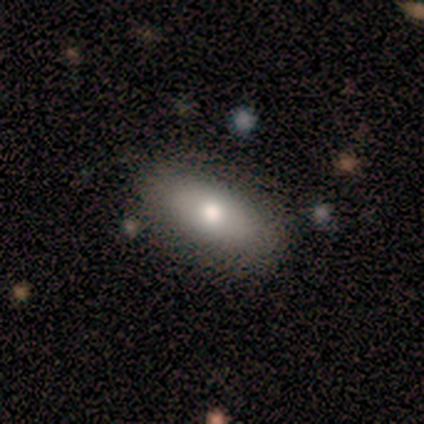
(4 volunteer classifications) smooth_or_featured: smooth (p=1.00)
how_rounded: in between (p=1.00)
merging: none (p=0.75) [alt: major disturbance p=0.25]